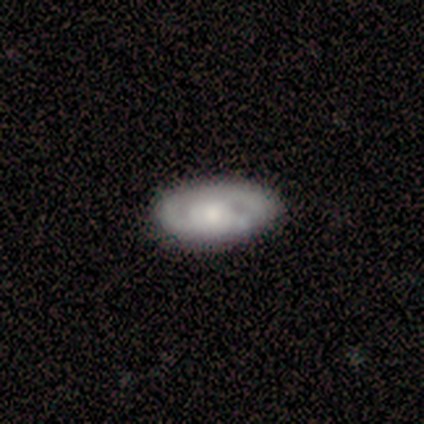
Volunteers were most divided on "bulge size": moderate: 45%, small: 30%, large: 20%, none: 5%, dominant: 0%. More confident: bar — no (90%); edge-on disk — no (83%); merging — none (81%); spiral arms — yes (65%); smooth or featured — featured or disk (62%); spiral winding — tight (62%); spiral arm count — 2 (54%).